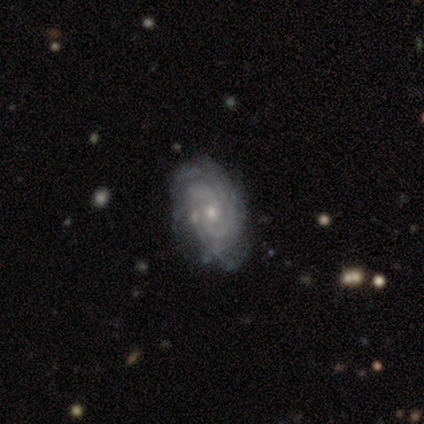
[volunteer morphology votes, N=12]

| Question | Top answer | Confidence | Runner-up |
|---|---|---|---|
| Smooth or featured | featured or disk | 92% | star or artifact (8%) |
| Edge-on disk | no | 82% | yes (18%) |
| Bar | no | 78% | strong (11%) |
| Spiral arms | yes | 89% | no (11%) |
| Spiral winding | tight | 75% | medium (12%) |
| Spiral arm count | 4 | 38% | 2 (25%) |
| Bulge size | small | 89% | moderate (11%) |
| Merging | none | 73% | minor disturbance (27%) |